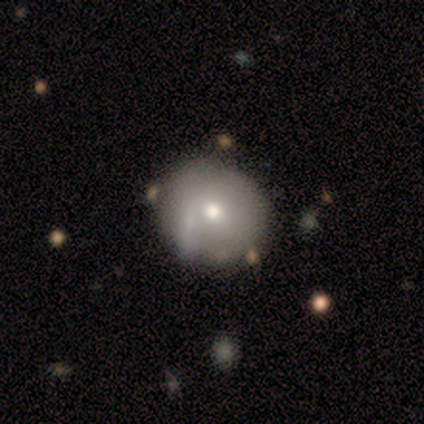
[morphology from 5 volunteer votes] Smooth or featured? 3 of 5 (60%) said smooth. How rounded? 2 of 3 (67%) said round. Merging? 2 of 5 (40%, tied with minor disturbance) said none.